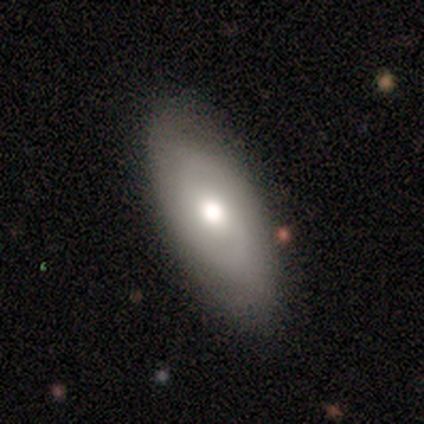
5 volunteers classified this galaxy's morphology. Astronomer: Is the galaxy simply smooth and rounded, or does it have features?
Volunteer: smooth — 60% (runner-up: featured or disk, 40%).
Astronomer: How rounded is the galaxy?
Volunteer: in between — 67%.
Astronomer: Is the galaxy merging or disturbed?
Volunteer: none — 100%.